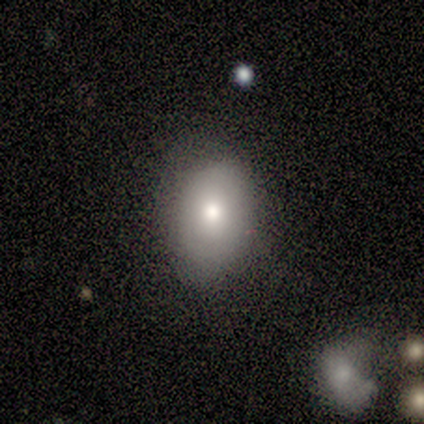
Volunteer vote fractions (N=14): Volunteers were most divided on "merging": none: 79%, minor disturbance: 14%, major disturbance: 7%, merger: 0%. More confident: smooth or featured — smooth (93%); how rounded — in between (92%).